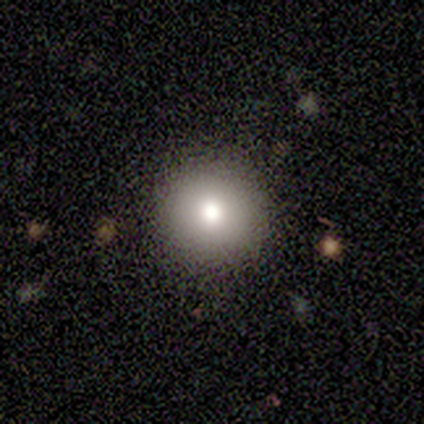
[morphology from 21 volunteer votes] A smooth galaxy with no disk features (90%) that is round (95%).

Vote fractions:
- Smooth or featured? smooth: 90% / featured or disk: 5% / star or artifact: 5%
- How rounded? round: 95% / cigar-shaped: 5% / in between: 0%
- Merging? none: 90% / minor disturbance: 10% / major disturbance: 0% / merger: 0%